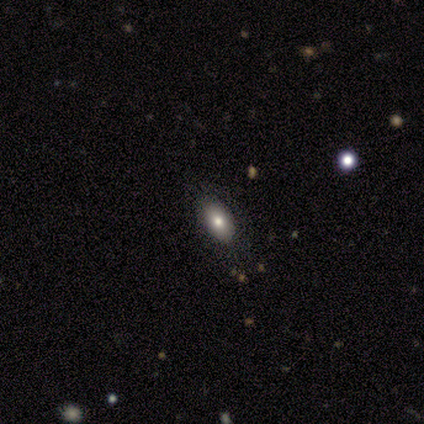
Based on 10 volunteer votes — A smooth galaxy with no disk features (50%) that is in between round and cigar-shaped (80%). Merging: none (100%).